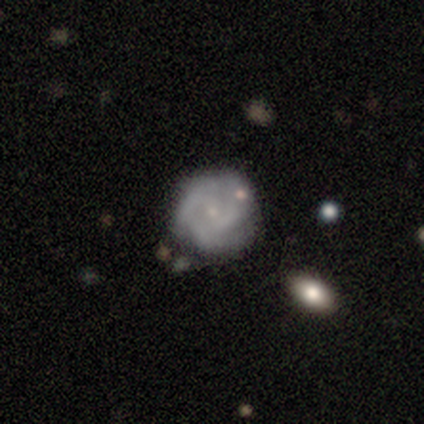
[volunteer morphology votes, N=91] smooth-or-featured: featured or disk: 75% | smooth: 23% | star or artifact: 2%
  disk-edge-on: no: 100% | yes: 0%
    bar: no: 69% | weak: 26% | strong: 4%
    has-spiral-arms: yes: 84% | no: 16%
      spiral-winding: tight: 65% | medium: 26% | loose: 9%
      spiral-arm-count: 3: 39% | can't tell: 25% | 2: 23% | 4: 12% | more than 4: 2% | 1: 0%
    bulge-size: small: 82% | none: 10% | moderate: 4% | dominant: 1% | large: 1%
  merging: none: 71% | minor disturbance: 24% | major disturbance: 4% | merger: 1%